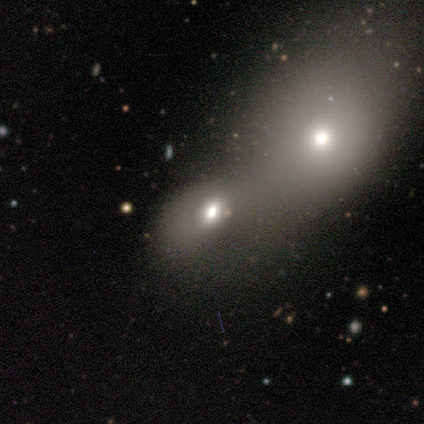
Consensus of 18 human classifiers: smooth_or_featured: smooth (p=0.78) [alt: featured or disk p=0.17]
how_rounded: in between (p=0.71) [alt: round p=0.29]
merging: merger (p=0.65)